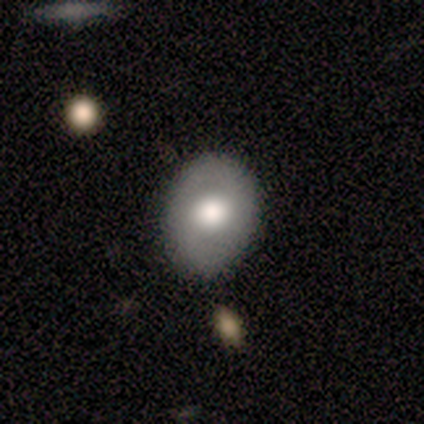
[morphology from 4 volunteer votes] Smooth or featured? 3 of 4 (75%) said smooth. How rounded? 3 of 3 (100%) said in between. Merging? 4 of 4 (100%) said none.